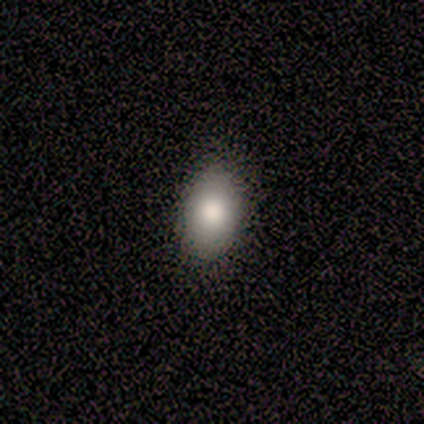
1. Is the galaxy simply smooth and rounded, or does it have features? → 83% smooth, 17% featured or disk, 0% star or artifact.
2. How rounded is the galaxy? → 80% in between, 20% round, 0% cigar-shaped.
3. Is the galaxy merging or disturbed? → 83% none, 8% minor disturbance, 8% major disturbance, 0% merger.